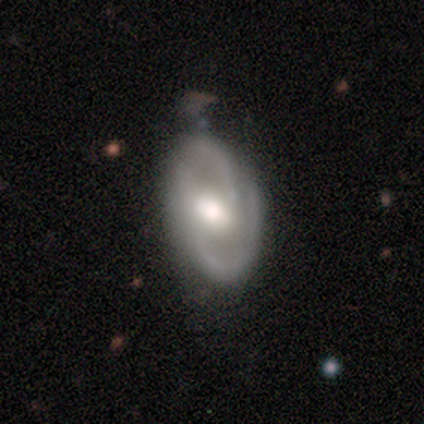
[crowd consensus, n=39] This is clearly a featured or disk galaxy (87%). It is clearly not viewed edge-on (91%). Bar: possibly weak (58%). Spiral arm pattern: clearly yes (87%). Spiral arm count: clearly 2 (89%). Spiral winding: possibly medium (59%). Central bulge: likely moderate (61%). Merging: possibly none (50%).